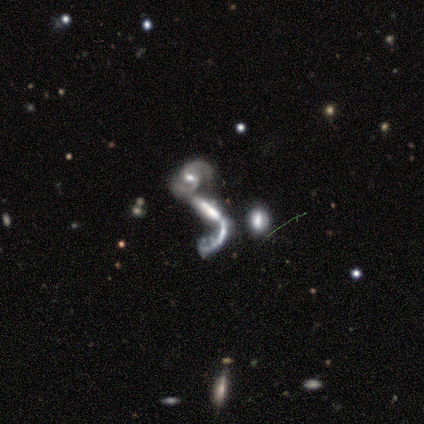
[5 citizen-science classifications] smooth-or-featured: featured or disk: 60% | smooth: 40% | star or artifact: 0%
  disk-edge-on: no: 100% | yes: 0%
    bar: strong: 67% | no: 33% | weak: 0%
    has-spiral-arms: no: 67% | yes: 33%
    bulge-size: none: 67% | moderate: 33% | dominant: 0% | large: 0% | small: 0%
  merging: merger: 40% | none: 20% | minor disturbance: 20% | major disturbance: 20%